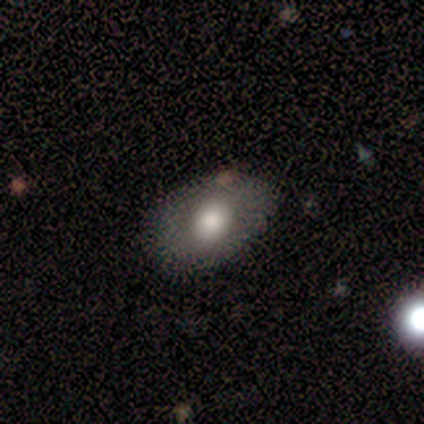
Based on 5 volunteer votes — Smooth or featured?
  - smooth: 60% *
  - featured or disk: 20%
  - star or artifact: 20%
How rounded?
  - in between: 100% *
  - round: 0%
  - cigar-shaped: 0%
Merging?
  - none: 100% *
  - minor disturbance: 0%
  - major disturbance: 0%
  - merger: 0%